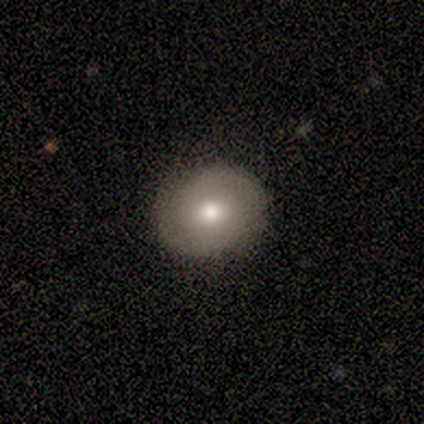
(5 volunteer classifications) A smooth galaxy with no disk features (60%) that is round (100%). Merging: none (80%).